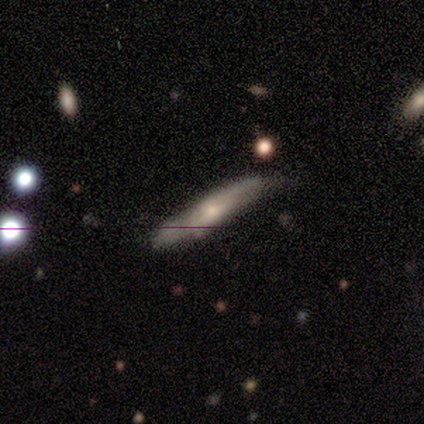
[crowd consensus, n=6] A featured or disk galaxy (83%) viewed edge-on (80%) with a rounded central bulge (100%). Merging: minor disturbance (67%).